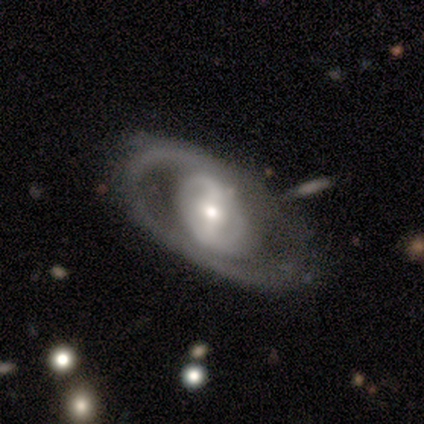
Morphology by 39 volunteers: A featured or disk galaxy (95%) with a strong bar (41%), 2 (67%) tight (58%) spiral arms (71%) and a moderate central bulge (59%). Merging: none (49%).